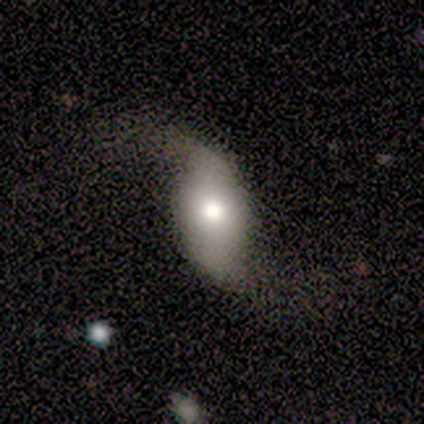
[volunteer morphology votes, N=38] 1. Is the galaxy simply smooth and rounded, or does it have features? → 63% featured or disk, 37% smooth, 0% star or artifact.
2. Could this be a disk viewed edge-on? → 96% no, 4% yes.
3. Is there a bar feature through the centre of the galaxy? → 57% no, 26% weak, 17% strong.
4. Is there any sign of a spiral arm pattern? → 91% yes, 9% no.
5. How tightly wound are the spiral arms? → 100% loose, 0% tight, 0% medium.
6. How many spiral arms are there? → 95% 2, 5% 1, 0% 3, 0% 4, 0% more than 4, 0% can't tell.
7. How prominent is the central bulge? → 57% moderate, 22% dominant, 17% large, 4% small, 0% none.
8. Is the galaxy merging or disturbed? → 79% none, 16% major disturbance, 5% minor disturbance, 0% merger.